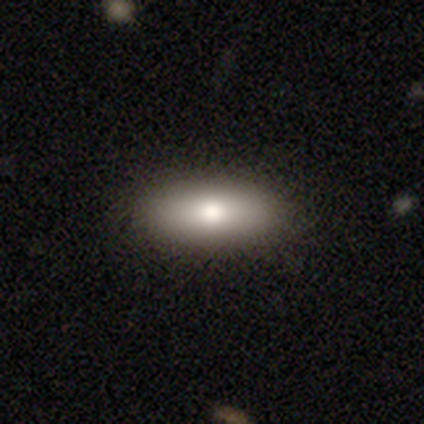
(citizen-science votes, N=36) This is likely a smooth galaxy (72%). How rounded: likely in between (62%). Merging: clearly none (88%).